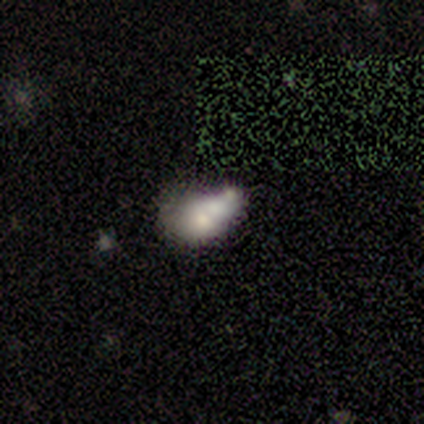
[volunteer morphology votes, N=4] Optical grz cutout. It shows a smooth galaxy with no disk features (50%) that is in between round and cigar-shaped (50%, tied with cigar-shaped). Merging: none (67%).